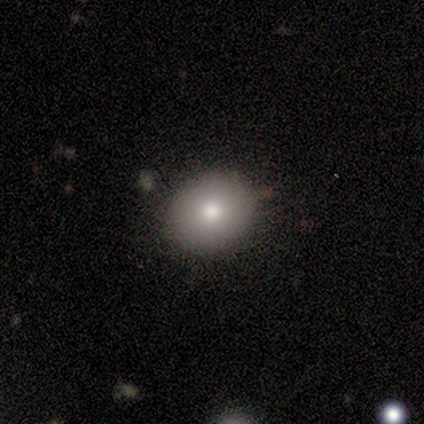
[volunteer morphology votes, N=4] Smooth or featured? smooth (75%)
How rounded? round (67%)
Merging? none (100%)